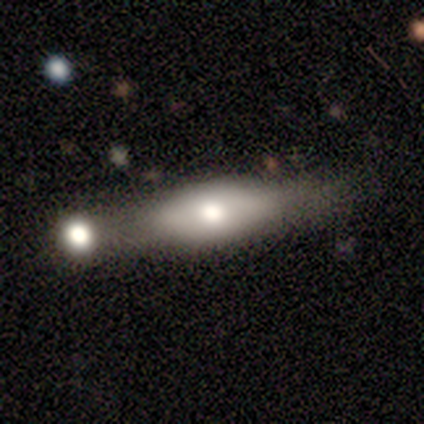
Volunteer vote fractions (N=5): This is likely a smooth galaxy (60%). How rounded: likely cigar-shaped (67%). Merging: likely merger (60%).